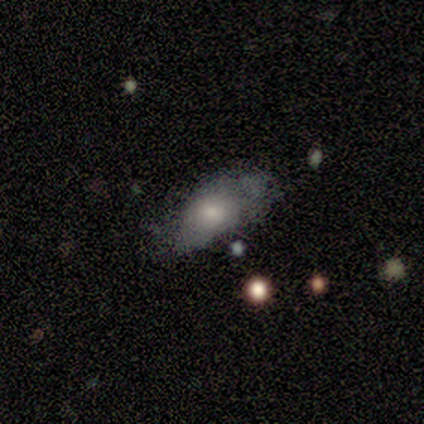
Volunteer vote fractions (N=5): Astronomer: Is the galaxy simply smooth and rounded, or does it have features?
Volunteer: smooth — 60% (runner-up: featured or disk, 40%).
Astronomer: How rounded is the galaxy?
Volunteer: in between — 100%.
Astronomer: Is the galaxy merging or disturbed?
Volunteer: none — 60%.